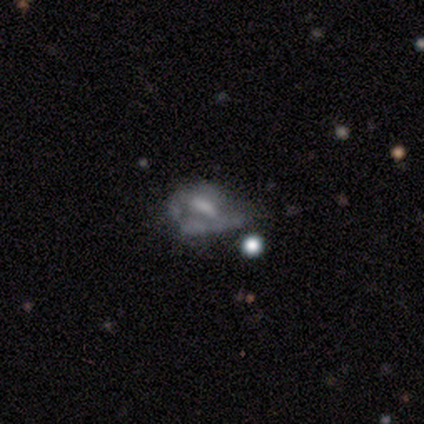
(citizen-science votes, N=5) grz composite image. It shows a smooth galaxy with no disk features (80%) that is in between round and cigar-shaped (100%). Merging: minor disturbance (80%).